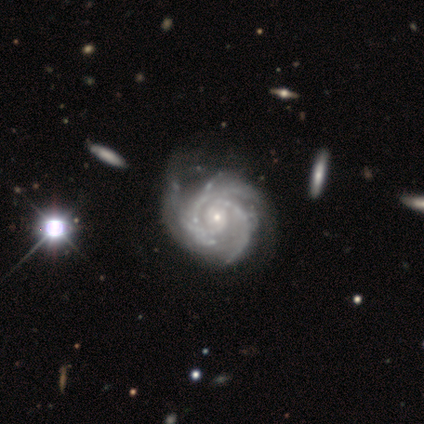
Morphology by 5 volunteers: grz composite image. It shows a featured or disk galaxy (80%) with no bar (100%), 3 (75%) tight (50%, tied with medium) spiral arms (100%) and a small central bulge (100%). Merging: none (40%, tied with merger).